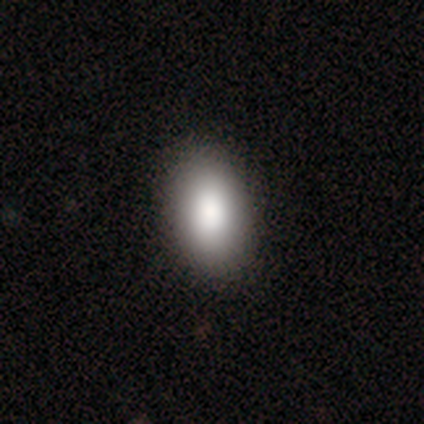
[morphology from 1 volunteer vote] This is clearly a smooth galaxy (100%). How rounded: clearly in between (100%). Merging: clearly minor disturbance (100%).